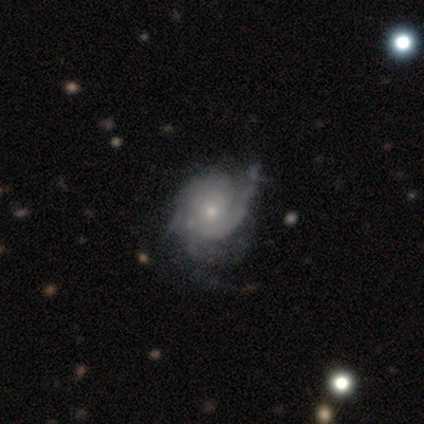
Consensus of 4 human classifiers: featured or disk 75%, smooth 25%, star or artifact 0%. Down the decision tree: edge-on disk — no (100%); bar — no (67%); spiral arms — yes (100%); spiral arm count — 1 (67%); spiral winding — tight (33%, tied with medium and loose); bulge size — small (100%); merging — minor disturbance (50%).